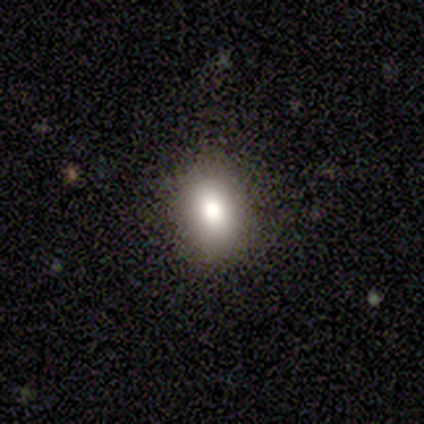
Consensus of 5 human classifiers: Smooth or featured? star or artifact (60%)